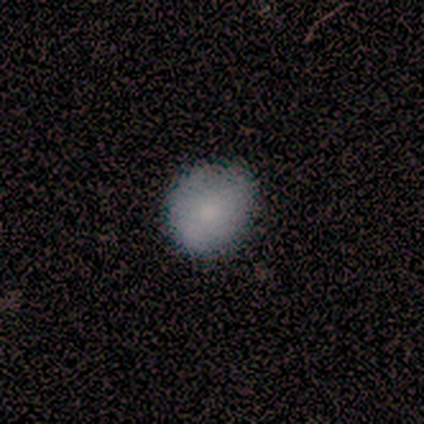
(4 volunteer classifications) This is likely a smooth galaxy (75%). How rounded: clearly round (100%). Merging: likely none (75%).